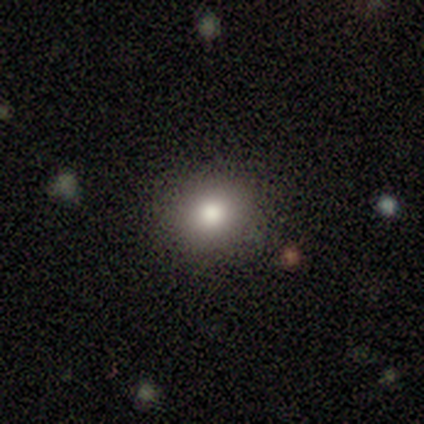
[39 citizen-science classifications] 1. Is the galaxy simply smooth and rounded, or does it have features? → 82% smooth, 18% star or artifact, 0% featured or disk.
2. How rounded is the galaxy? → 75% round, 25% in between, 0% cigar-shaped.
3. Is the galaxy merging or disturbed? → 100% none, 0% minor disturbance, 0% major disturbance, 0% merger.